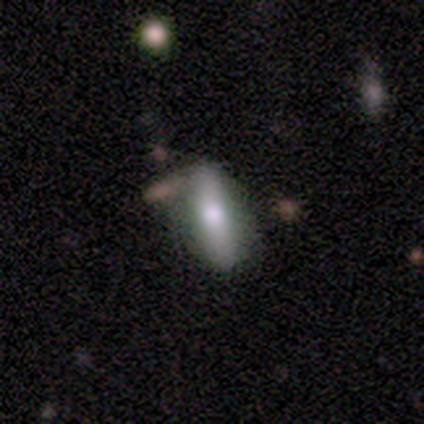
Smooth or featured?
  - smooth: 60% *
  - featured or disk: 40%
  - star or artifact: 0%
How rounded?
  - in between: 67% *
  - cigar-shaped: 33%
  - round: 0%
Merging?
  - none: 80% *
  - minor disturbance: 20%
  - major disturbance: 0%
  - merger: 0%